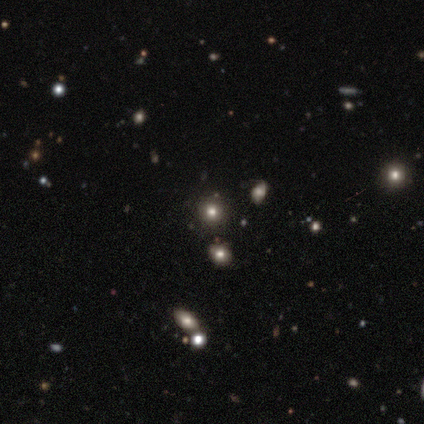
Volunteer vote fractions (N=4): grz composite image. It shows a smooth galaxy with no disk features (75%) that is round (67%). Merging: none (67%).